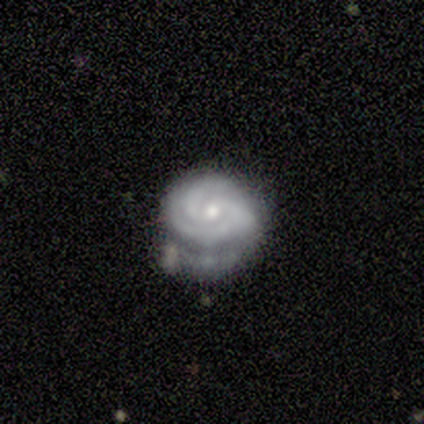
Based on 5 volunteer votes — Q: Smooth or featured?
A: featured or disk (80%); runner-up: star or artifact (20%)
Q: Edge-on disk?
A: no (75%); runner-up: yes (25%)
Q: Bar?
A: no (100%)
Q: Spiral arms?
A: yes (100%)
Q: Spiral winding?
A: tight (100%)
Q: Spiral arm count?
A: 2 (67%); runner-up: can't tell (33%)
Q: Bulge size?
A: small (67%); runner-up: moderate (33%)
Q: Merging?
A: minor disturbance (50%); runner-up: none (25%)